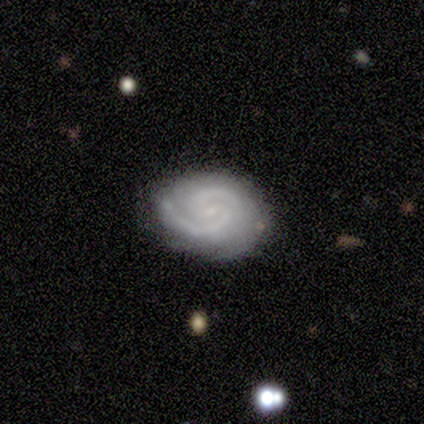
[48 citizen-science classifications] smooth-or-featured: featured or disk: 77% | smooth: 15% | star or artifact: 8%
  disk-edge-on: no: 97% | yes: 3%
    bar: no: 47% | weak: 44% | strong: 8%
    has-spiral-arms: yes: 100% | no: 0%
      spiral-winding: medium: 50% | tight: 47% | loose: 3%
      spiral-arm-count: 2: 89% | can't tell: 6% | 1: 3% | 3: 3% | 4: 0% | more than 4: 0%
    bulge-size: small: 81% | moderate: 11% | none: 8% | dominant: 0% | large: 0%
  merging: none: 68% | minor disturbance: 18% | merger: 9% | major disturbance: 5%